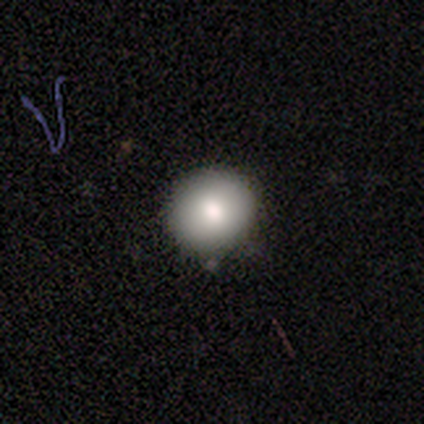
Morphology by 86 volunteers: Smooth or featured? 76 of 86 (88%) said smooth. How rounded? 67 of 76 (88%) said round. Merging? 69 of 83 (83%) said none.